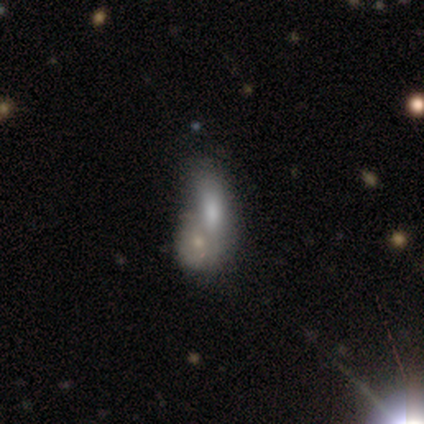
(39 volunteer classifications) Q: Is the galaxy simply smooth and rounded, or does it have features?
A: smooth — 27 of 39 (69%).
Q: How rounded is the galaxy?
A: in between — 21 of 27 (78%).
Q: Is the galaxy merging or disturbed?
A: merger — 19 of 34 (56%).